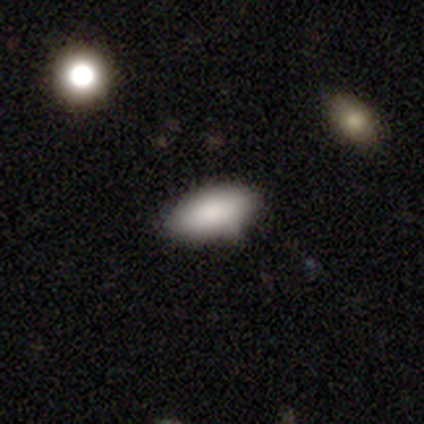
Overall: smooth (92%). How rounded: in between (97%). Merging: none (84%).